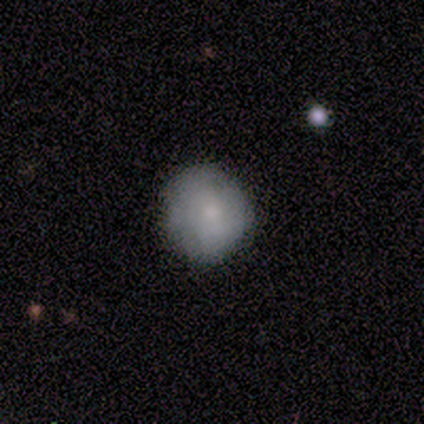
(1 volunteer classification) smooth_or_featured: featured or disk (p=1.00)
disk_edge_on: no (p=1.00)
bar: no (p=1.00)
has_spiral_arms: no (p=1.00)
bulge_size: moderate (p=1.00)
merging: major disturbance (p=1.00)